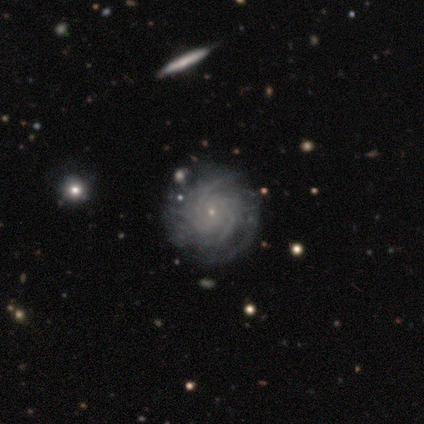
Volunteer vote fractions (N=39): Smooth or featured? featured or disk (77%)
Edge-on disk? no (100%)
Bar? no (73%)
Spiral arms? yes (97%)
Spiral winding? tight (86%)
Spiral arm count? more than 4 (41%)
Bulge size? small (97%)
Merging? none (70%)